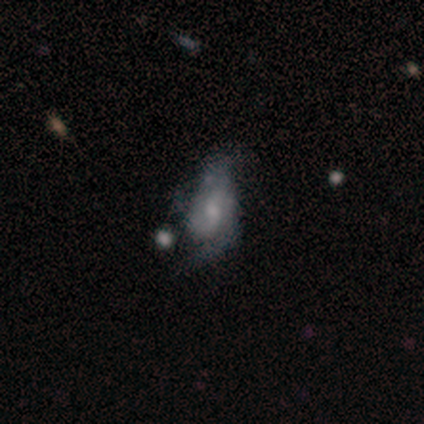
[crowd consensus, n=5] featured or disk 60%, smooth 40%, star or artifact 0%. Down the decision tree: edge-on disk — no (100%); bar — no (67%); spiral arms — yes (100%); spiral arm count — 2 (67%); spiral winding — tight (33%, tied with medium and loose); bulge size — small (100%); merging — none (40%, tied with minor disturbance).